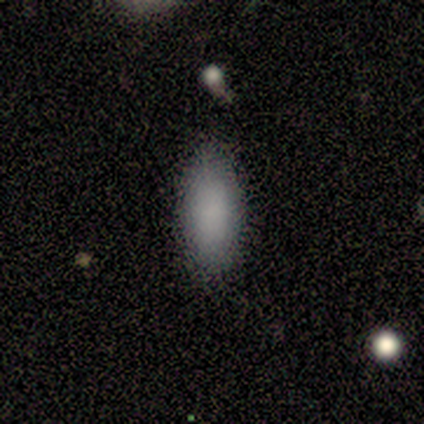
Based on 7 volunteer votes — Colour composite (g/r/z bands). It shows a smooth galaxy with no disk features (86%) that is in between round and cigar-shaped (100%). Merging: none (100%).